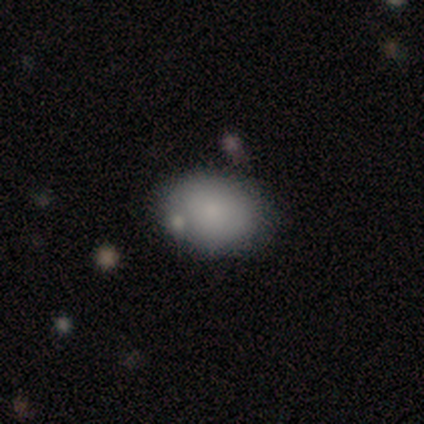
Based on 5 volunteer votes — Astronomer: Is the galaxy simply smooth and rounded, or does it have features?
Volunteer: smooth — 100%.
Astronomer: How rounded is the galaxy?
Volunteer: in between — 100%.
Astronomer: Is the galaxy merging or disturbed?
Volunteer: none — 80%.